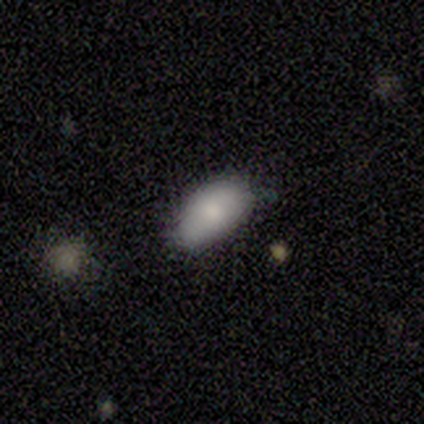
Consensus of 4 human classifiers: smooth 100%, featured or disk 0%, star or artifact 0%. Down the decision tree: how rounded — in between (100%); merging — none (75%).